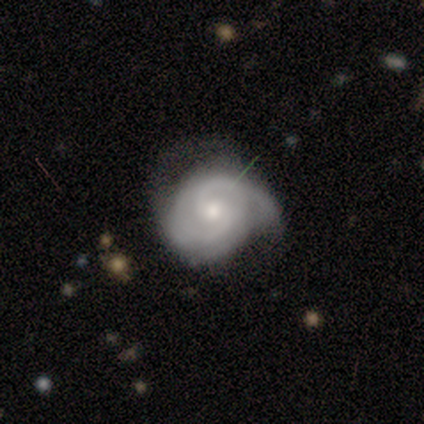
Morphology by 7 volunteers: A featured or disk galaxy (100%) with no bar (86%), 2 (71%) medium (71%) spiral arms (100%) and a moderate central bulge (71%). Merging: none (43%, tied with minor disturbance).